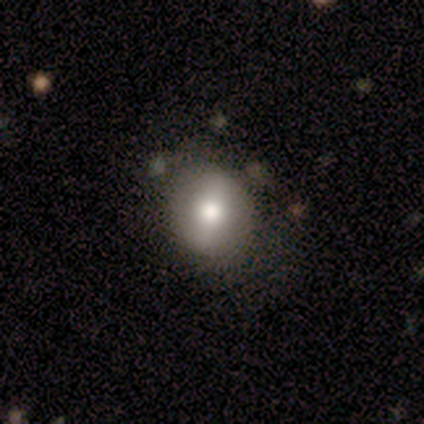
A smooth galaxy with no disk features (80%) that is round (75%). Merging: none (60%).